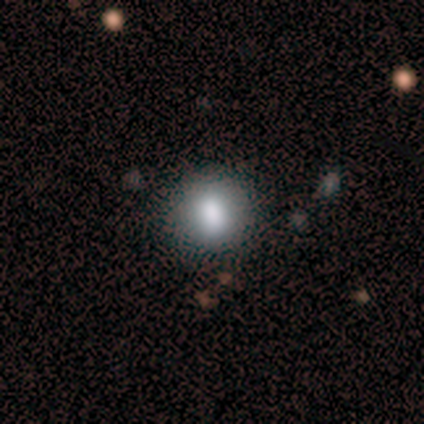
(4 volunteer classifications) smooth_or_featured: smooth (p=0.50) [alt: featured or disk p=0.25]
how_rounded: round (p=0.50) [tied with: in between p=0.50]
merging: none (p=1.00)